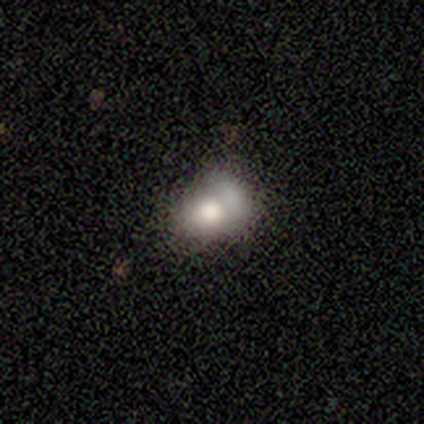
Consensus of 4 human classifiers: smooth-or-featured: smooth: 50% | featured or disk: 25% | star or artifact: 25%
  how-rounded: in between: 100% | round: 0% | cigar-shaped: 0%
  merging: merger: 67% | none: 33% | minor disturbance: 0% | major disturbance: 0%